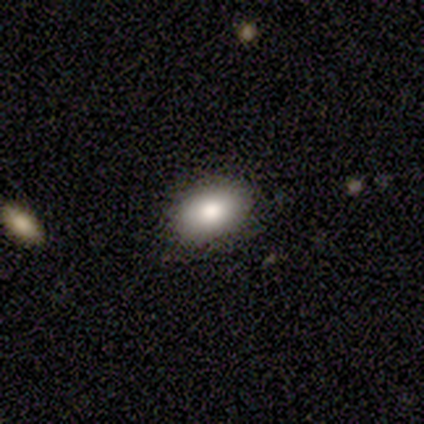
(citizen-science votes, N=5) A smooth galaxy with no disk features (100%) that is in between round and cigar-shaped (80%).

Vote fractions:
- Smooth or featured? smooth: 100% / featured or disk: 0% / star or artifact: 0%
- How rounded? in between: 80% / round: 20% / cigar-shaped: 0%
- Merging? none: 100% / minor disturbance: 0% / major disturbance: 0% / merger: 0%